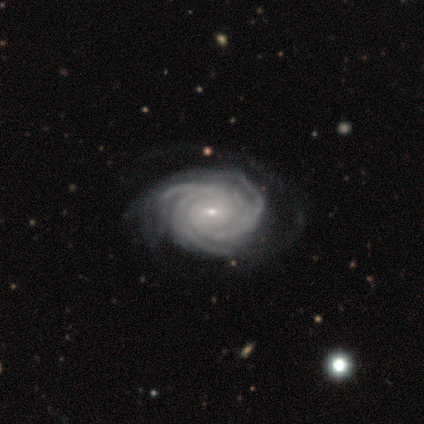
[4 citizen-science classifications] Smooth or featured? featured or disk (100%)
Edge-on disk? no (100%)
Bar? weak (50%, tied with no)
Spiral arms? yes (100%)
Spiral winding? tight (100%)
Spiral arm count? 4 (50%)
Bulge size? small (100%)
Merging? none (75%)